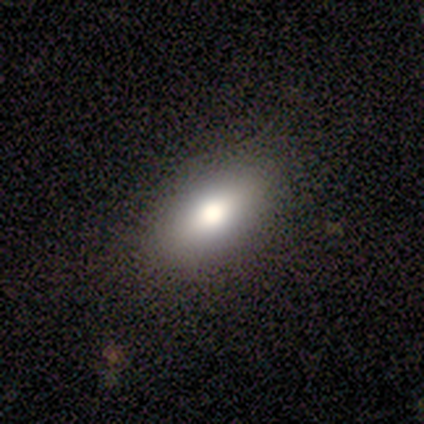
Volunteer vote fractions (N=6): smooth 100%, featured or disk 0%, star or artifact 0%. Down the decision tree: how rounded — in between (100%); merging — none (100%).